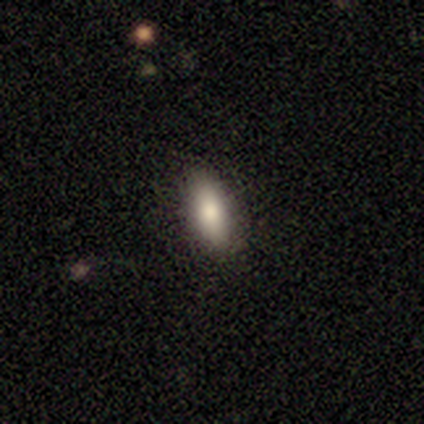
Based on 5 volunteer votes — smooth 60%, star or artifact 40%, featured or disk 0%. Down the decision tree: how rounded — in between (100%); merging — none (100%).